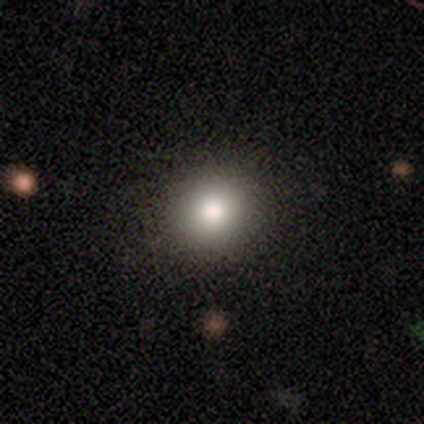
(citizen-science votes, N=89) smooth_or_featured: smooth (p=0.81) [alt: star or artifact p=0.11]
how_rounded: round (p=0.88) [alt: in between p=0.12]
merging: none (p=0.94) [alt: minor disturbance p=0.04]